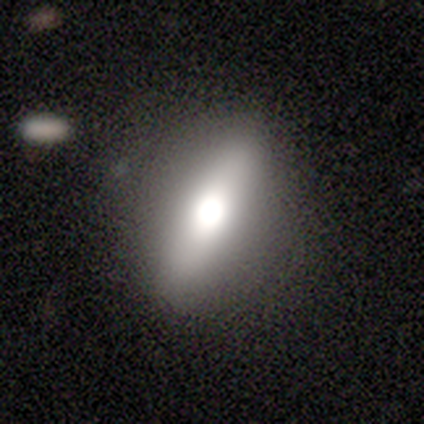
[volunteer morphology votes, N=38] This is possibly a smooth galaxy (53%). How rounded: possibly in between (55%). Merging: possibly none (58%).